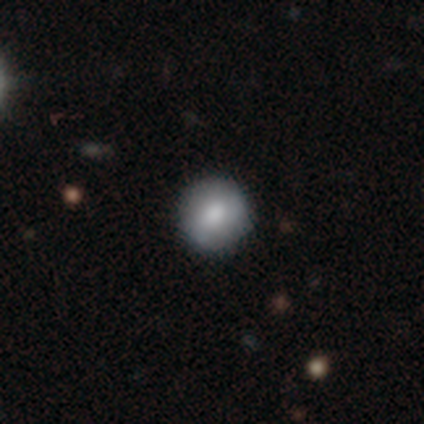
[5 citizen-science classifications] Volunteers were most divided on "smooth or featured": smooth: 60%, featured or disk: 40%, star or artifact: 0%. More confident: how rounded — round (100%); merging — none (80%).